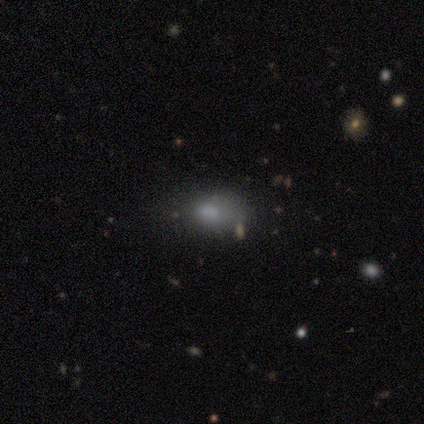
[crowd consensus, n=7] Smooth or featured: smooth — 86% (star or artifact — 14%)
How rounded: in between — 100%
Merging: none — 33% (tied with minor disturbance — 33%; major disturbance — 33%)